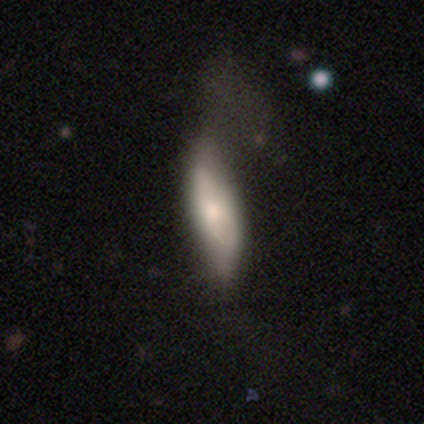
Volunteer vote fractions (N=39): smooth_or_featured: smooth (p=0.56) [alt: featured or disk p=0.38]
how_rounded: in between (p=0.55) [alt: cigar-shaped p=0.45]
merging: none (p=0.22) [alt: minor disturbance p=0.16]